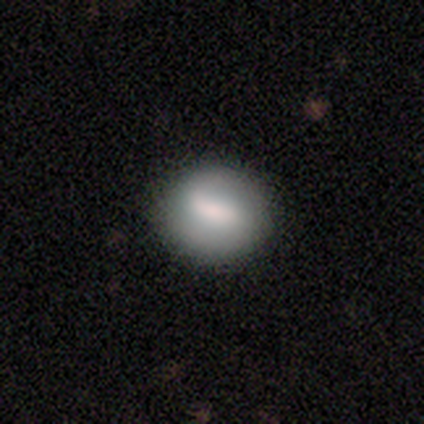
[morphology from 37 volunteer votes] smooth-or-featured: smooth: 62% | featured or disk: 35% | star or artifact: 3%
  how-rounded: round: 74% | in between: 26% | cigar-shaped: 0%
  merging: none: 83% | minor disturbance: 8% | major disturbance: 6% | merger: 3%